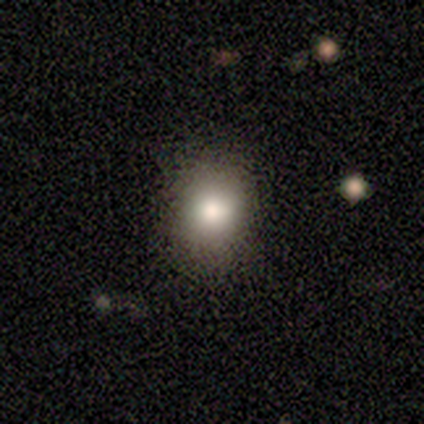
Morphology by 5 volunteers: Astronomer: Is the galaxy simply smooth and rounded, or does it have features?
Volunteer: smooth — 100%.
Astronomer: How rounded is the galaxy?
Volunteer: round — 80%.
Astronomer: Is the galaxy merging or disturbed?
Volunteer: none — 100%.